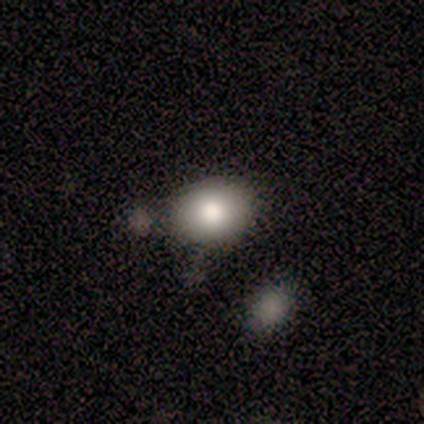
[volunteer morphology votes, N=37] A smooth galaxy with no disk features (78%) that is in between round and cigar-shaped (55%).

Vote fractions:
- Smooth or featured? smooth: 78% / featured or disk: 14% / star or artifact: 8%
- How rounded? in between: 55% / round: 45% / cigar-shaped: 0%
- Merging? none: 79% / minor disturbance: 9% / merger: 9% / major disturbance: 3%